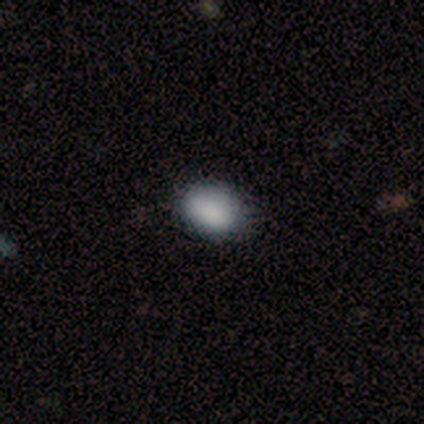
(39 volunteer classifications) Morphology: type=smooth (92%); roundness=in between (81%); merging=none (61%).